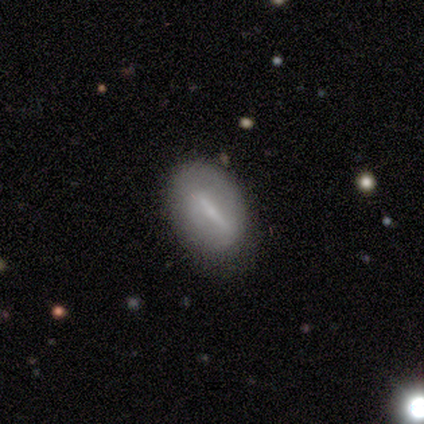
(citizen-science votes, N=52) Volunteers were most divided on "smooth or featured": featured or disk: 52%, smooth: 42%, star or artifact: 6%. More confident: bar — strong (86%); edge-on disk — no (78%); spiral arms — no (62%); merging — none (61%); bulge size — small (57%).